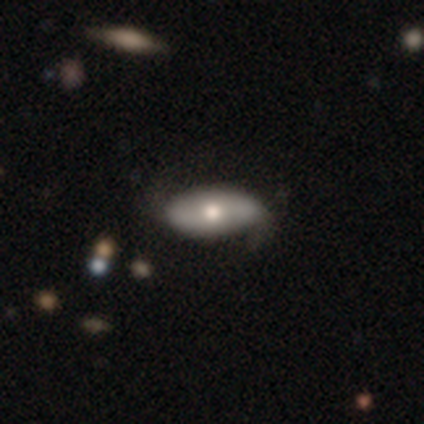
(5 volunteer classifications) A featured or disk galaxy (60%) viewed edge-on (67%) with a rounded central bulge (100%).

Vote fractions:
- Smooth or featured? featured or disk: 60% / smooth: 40% / star or artifact: 0%
- Edge-on disk? yes: 67% / no: 33%
- Edge-on bulge? rounded: 100% / boxy: 0% / none: 0%
- Merging? none: 60% / minor disturbance: 40% / major disturbance: 0% / merger: 0%